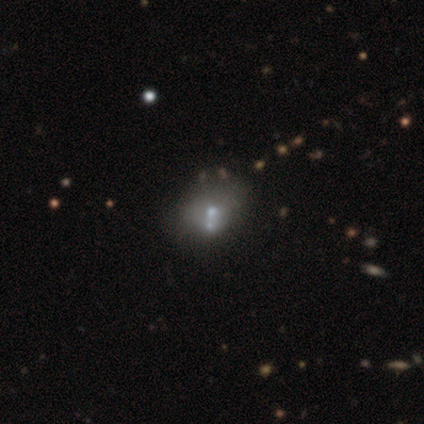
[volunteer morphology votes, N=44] Smooth or featured? 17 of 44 (39%, tied with featured or disk) said smooth. How rounded? 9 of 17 (53%) said round. Merging? 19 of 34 (56%) said merger.